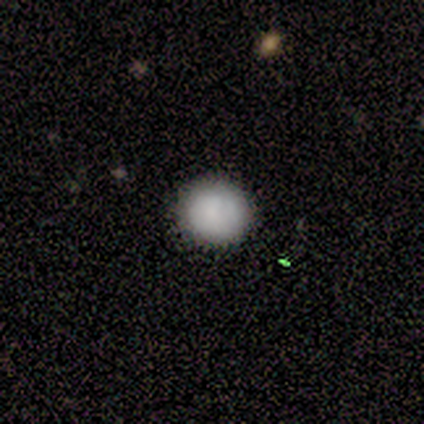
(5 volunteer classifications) Volunteers were most divided on "how rounded": round: 75%, in between: 25%, cigar-shaped: 0%. More confident: merging — none (100%); smooth or featured — smooth (80%).